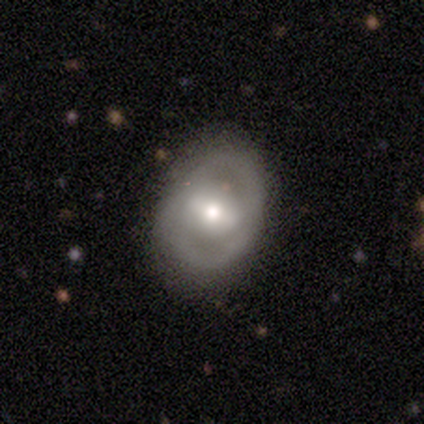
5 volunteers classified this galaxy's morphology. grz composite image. It shows a featured or disk galaxy (60%) with a weak bar (100%), 2 (100%) tight (100%) spiral arms (100%) and a moderate central bulge (100%). Merging: none (60%).